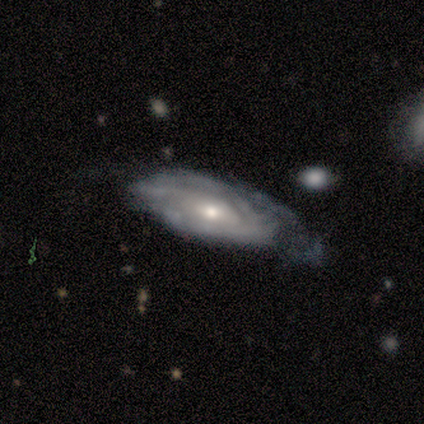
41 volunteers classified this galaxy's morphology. smooth-or-featured: featured or disk: 76% | smooth: 22% | star or artifact: 2%
  disk-edge-on: no: 97% | yes: 3%
    bar: no: 77% | weak: 13% | strong: 10%
    has-spiral-arms: yes: 83% | no: 17%
      spiral-winding: tight: 76% | medium: 20% | loose: 4%
      spiral-arm-count: can't tell: 68% | 2: 8% | 3: 8% | 4: 8% | 1: 4% | more than 4: 4%
    bulge-size: moderate: 60% | small: 30% | large: 7% | none: 3% | dominant: 0%
  merging: major disturbance: 38% | minor disturbance: 32% | none: 25% | merger: 5%